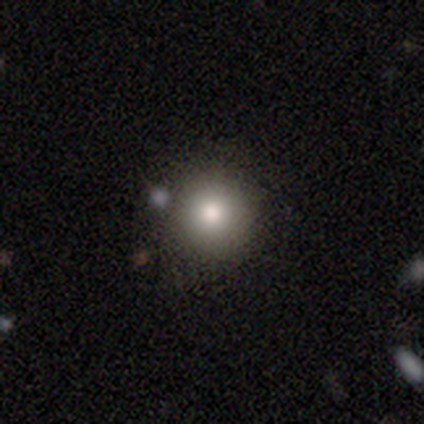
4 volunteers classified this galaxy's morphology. Smooth or featured? smooth (75%)
How rounded? round (100%)
Merging? none (100%)